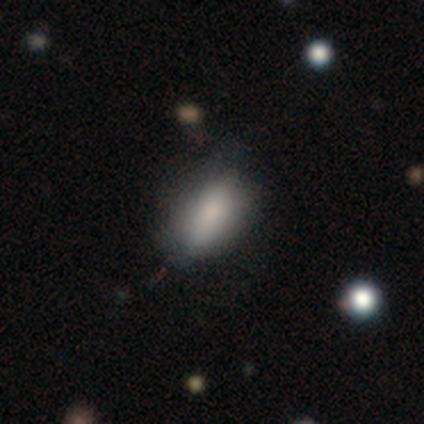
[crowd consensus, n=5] Smooth or featured? 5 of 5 (100%) said smooth. How rounded? 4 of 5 (80%) said in between. Merging? 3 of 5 (60%) said minor disturbance.